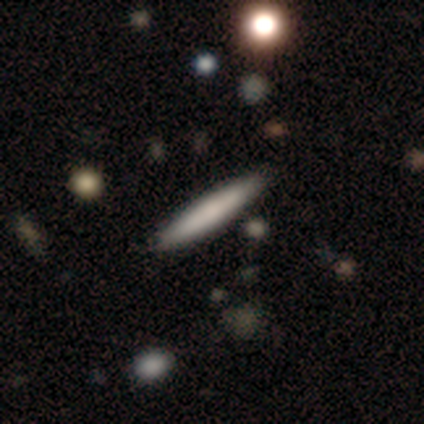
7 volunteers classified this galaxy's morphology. smooth 71%, featured or disk 29%, star or artifact 0%. Down the decision tree: how rounded — cigar-shaped (100%); merging — none (86%).